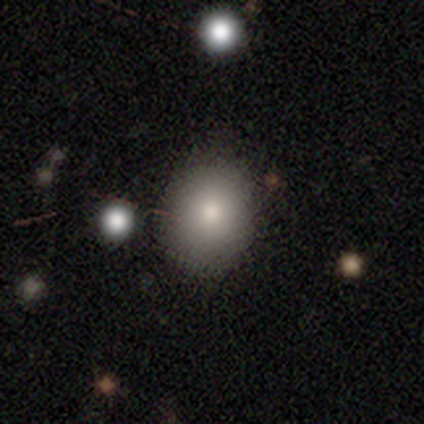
Volunteers were most divided on "how rounded": round: 68%, in between: 29%, cigar-shaped: 3%. More confident: merging — none (76%); smooth or featured — smooth (69%).